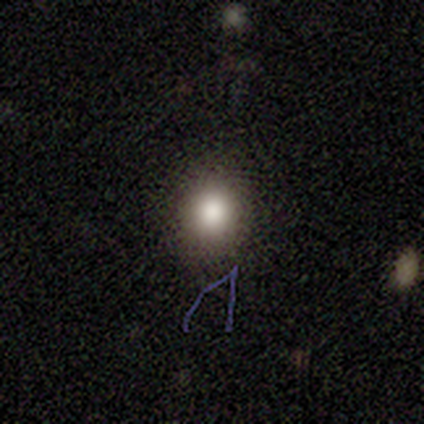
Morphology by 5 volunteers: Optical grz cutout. It shows a smooth galaxy with no disk features (80%) that is round (75%). Merging: none (100%).